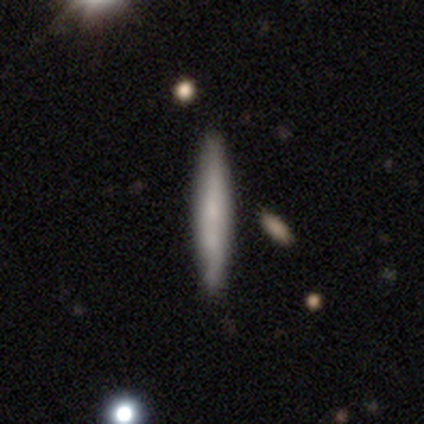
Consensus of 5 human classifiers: This is likely a smooth galaxy (60%). How rounded: clearly cigar-shaped (100%). Merging: likely none (60%).